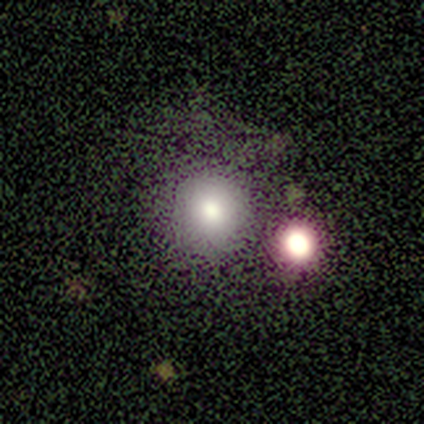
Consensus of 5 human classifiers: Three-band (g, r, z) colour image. It shows a smooth galaxy with no disk features (80%) that is round (100%). Merging: none (75%).